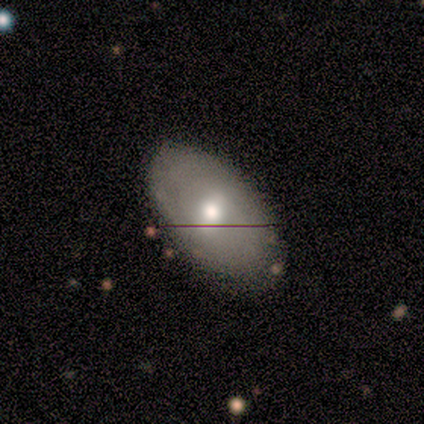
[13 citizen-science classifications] Volunteers were most divided on "smooth or featured": smooth: 69%, featured or disk: 31%, star or artifact: 0%. More confident: merging — none (100%); how rounded — in between (89%).